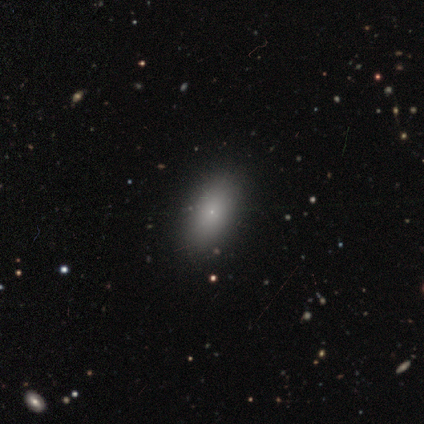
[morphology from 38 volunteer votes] smooth 74%, featured or disk 16%, star or artifact 11%. Down the decision tree: how rounded — in between (93%); merging — none (94%).